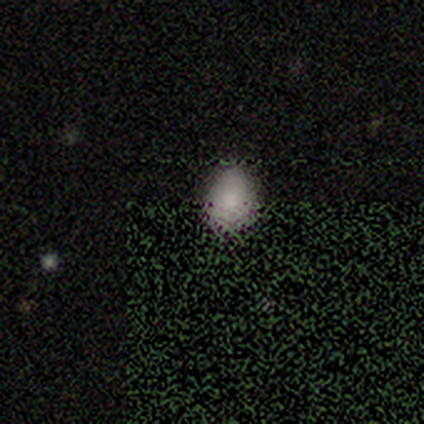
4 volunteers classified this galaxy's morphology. A smooth galaxy with no disk features (50%) that is round (50%, tied with in between). Merging: none (100%).